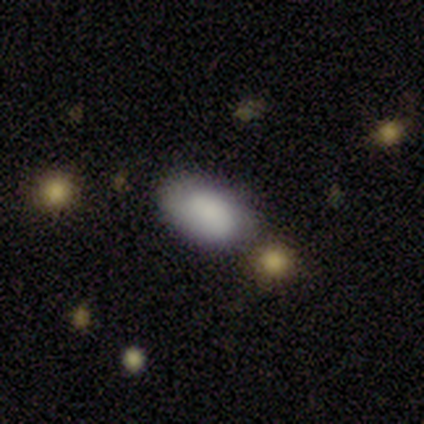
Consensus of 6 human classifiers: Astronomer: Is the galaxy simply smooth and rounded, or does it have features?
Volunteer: smooth — 67%.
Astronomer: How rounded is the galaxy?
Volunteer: in between — 100%.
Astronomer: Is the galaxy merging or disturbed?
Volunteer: none — 80%.